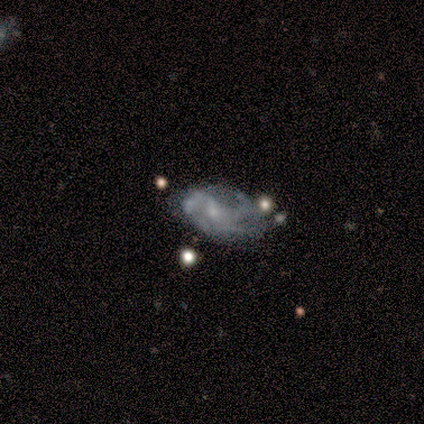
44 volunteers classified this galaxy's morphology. type=featured or disk (80%); edge-on=no (97%); bar=weak (50%); spiral arms=yes (79%); winding=medium (44%); arm count=3 (41%); bulge=small (71%); merging=minor disturbance (33%).